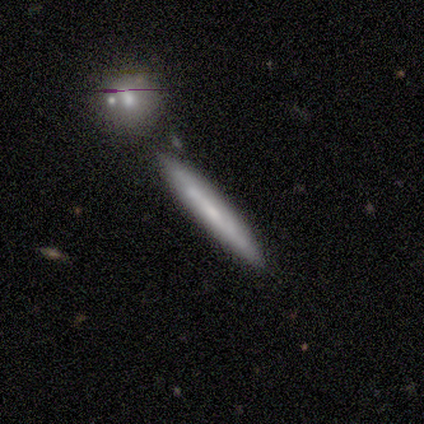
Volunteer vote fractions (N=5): Smooth or featured? smooth (60%)
How rounded? cigar-shaped (100%)
Merging? none (60%)